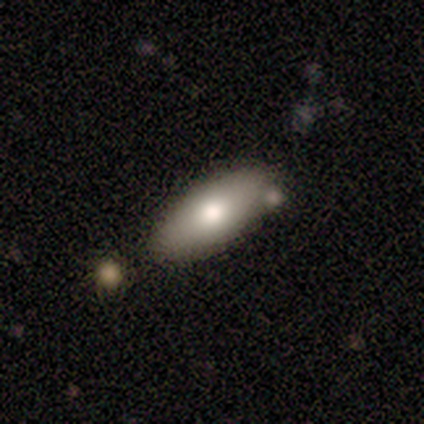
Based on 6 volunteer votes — A smooth galaxy with no disk features (83%) that is in between round and cigar-shaped (100%).

Vote fractions:
- Smooth or featured? smooth: 83% / featured or disk: 17% / star or artifact: 0%
- How rounded? in between: 100% / round: 0% / cigar-shaped: 0%
- Merging? none: 67% / minor disturbance: 17% / merger: 17% / major disturbance: 0%